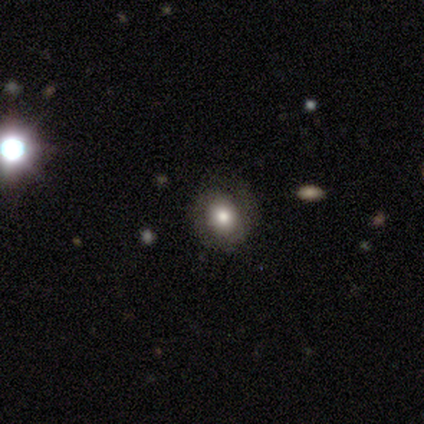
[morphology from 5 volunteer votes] Smooth or featured?
  - star or artifact: 60% *
  - smooth: 20%
  - featured or disk: 20%